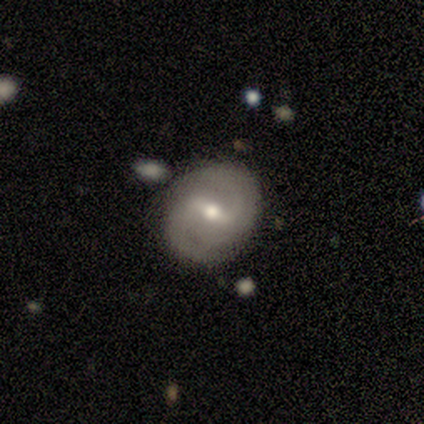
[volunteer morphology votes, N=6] Smooth or featured? 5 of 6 (83%) said featured or disk. Edge-on disk? 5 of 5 (100%) said no. Bar? 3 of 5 (60%) said strong. Spiral arms? 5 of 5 (100%) said yes. Spiral winding? 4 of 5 (80%) said medium. Spiral arm count? 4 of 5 (80%) said 2. Bulge size? 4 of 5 (80%) said moderate. Merging? 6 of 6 (100%) said none.